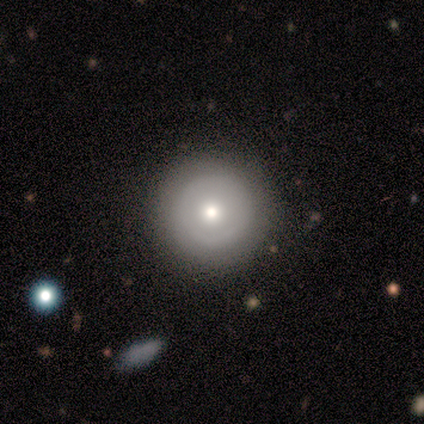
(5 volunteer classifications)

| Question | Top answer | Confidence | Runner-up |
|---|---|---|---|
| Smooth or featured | featured or disk | 60% | smooth (40%) |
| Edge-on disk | no | 100% | — |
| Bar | no | 67% | weak (33%) |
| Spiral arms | yes | 67% | no (33%) |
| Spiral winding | tight | 50% | tied: medium (50%) |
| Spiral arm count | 2 | 50% | tied: 3 (50%) |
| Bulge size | moderate | 67% | large (33%) |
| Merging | none | 80% | minor disturbance (20%) |